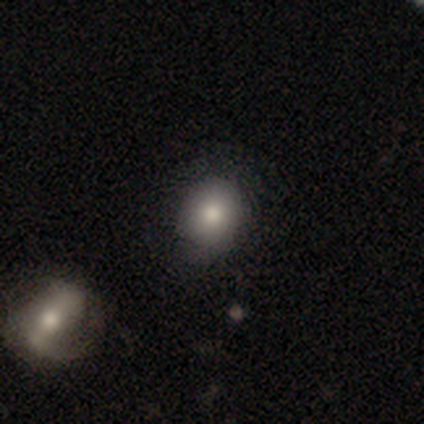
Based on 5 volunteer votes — This appears to be a smooth galaxy with no disk features (60%) that is round (67%). Merging: none (100%).